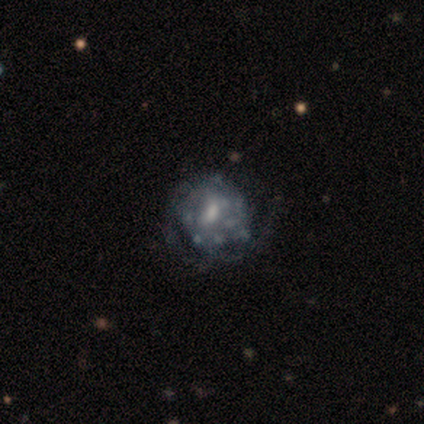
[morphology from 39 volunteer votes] Volunteers were most divided on "spiral arms": no: 53%, yes: 47%. Remaining: edge-on disk — no (100%); smooth or featured — featured or disk (87%); bulge size — moderate (59%); bar — no (56%); merging — none (44%).